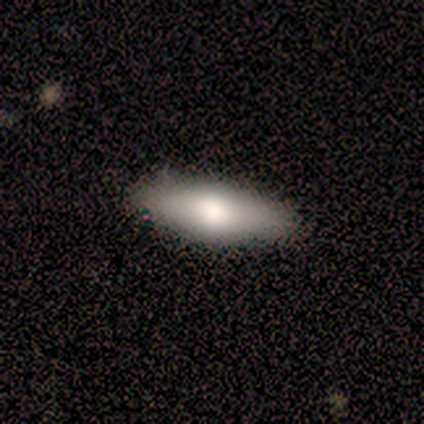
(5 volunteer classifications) smooth_or_featured: smooth (p=1.00)
how_rounded: in between (p=0.80) [alt: cigar-shaped p=0.20]
merging: none (p=0.80) [alt: minor disturbance p=0.20]